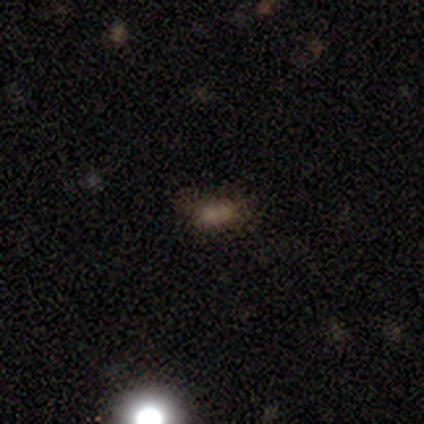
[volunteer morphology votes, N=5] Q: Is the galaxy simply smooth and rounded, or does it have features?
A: smooth — 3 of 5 (60%).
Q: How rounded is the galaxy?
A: in between — 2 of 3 (67%).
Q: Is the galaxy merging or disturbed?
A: none — 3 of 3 (100%).